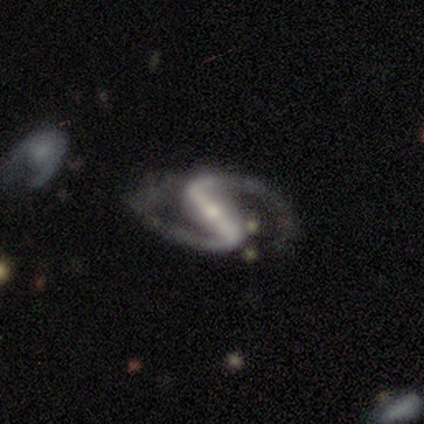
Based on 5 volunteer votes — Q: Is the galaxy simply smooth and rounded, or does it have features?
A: featured or disk — 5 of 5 (100%).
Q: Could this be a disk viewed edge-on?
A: no — 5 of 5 (100%).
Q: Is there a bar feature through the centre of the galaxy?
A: strong — 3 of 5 (60%).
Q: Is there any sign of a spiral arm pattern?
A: yes — 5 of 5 (100%).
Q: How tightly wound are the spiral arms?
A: medium — 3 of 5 (60%).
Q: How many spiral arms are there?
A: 2 — 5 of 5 (100%).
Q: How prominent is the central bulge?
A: moderate — 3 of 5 (60%).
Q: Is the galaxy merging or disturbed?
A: none — 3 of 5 (60%).